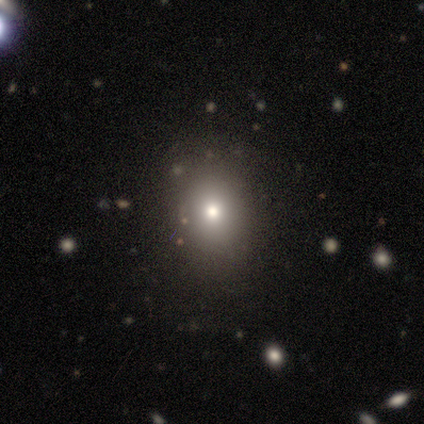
Smooth or featured? smooth (100%)
How rounded? in between (80%)
Merging? none (80%)